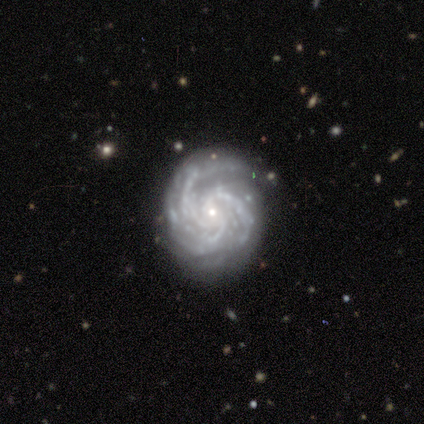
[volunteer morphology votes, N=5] Smooth or featured? 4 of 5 (80%) said featured or disk. Edge-on disk? 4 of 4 (100%) said no. Bar? 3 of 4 (75%) said no. Spiral arms? 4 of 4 (100%) said yes. Spiral winding? 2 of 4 (50%, tied with medium) said tight. Spiral arm count? 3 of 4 (75%) said 3. Bulge size? 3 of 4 (75%) said small. Merging? 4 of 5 (80%) said none.